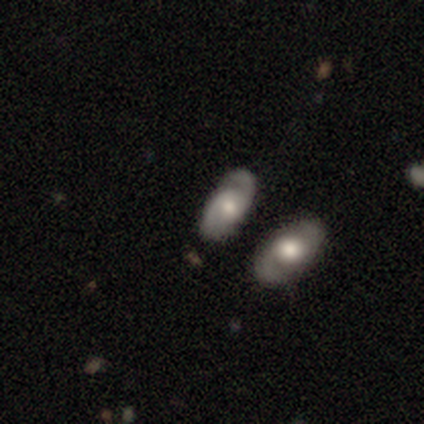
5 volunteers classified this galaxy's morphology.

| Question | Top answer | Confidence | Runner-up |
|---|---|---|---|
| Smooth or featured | smooth | 60% | featured or disk (40%) |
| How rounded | in between | 100% | — |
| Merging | none | 60% | merger (40%) |